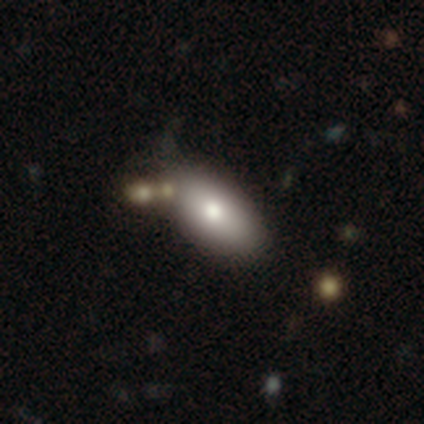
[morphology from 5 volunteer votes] Q: Smooth or featured?
A: smooth (80%); runner-up: featured or disk (20%)
Q: How rounded?
A: in between (100%)
Q: Merging?
A: none (60%); runner-up: minor disturbance (20%)